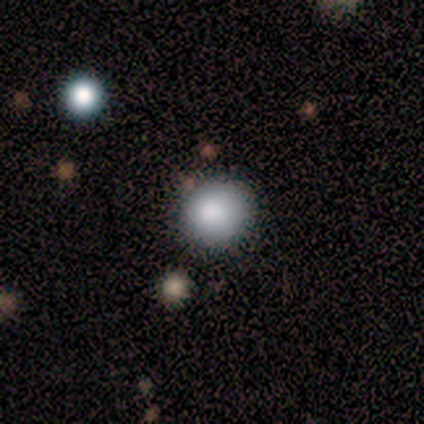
Smooth or featured? 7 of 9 (78%) said smooth. How rounded? 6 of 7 (86%) said round. Merging? 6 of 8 (75%) said none.